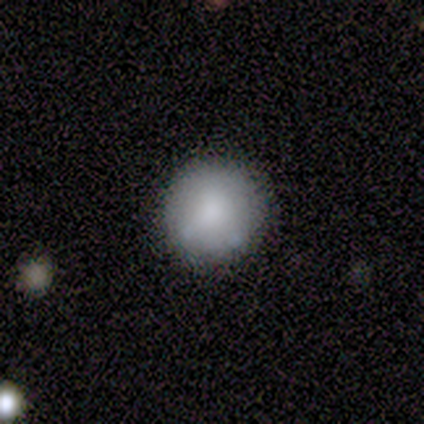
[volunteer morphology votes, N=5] smooth-or-featured: smooth: 100% | featured or disk: 0% | star or artifact: 0%
  how-rounded: round: 100% | in between: 0% | cigar-shaped: 0%
  merging: none: 80% | major disturbance: 20% | minor disturbance: 0% | merger: 0%